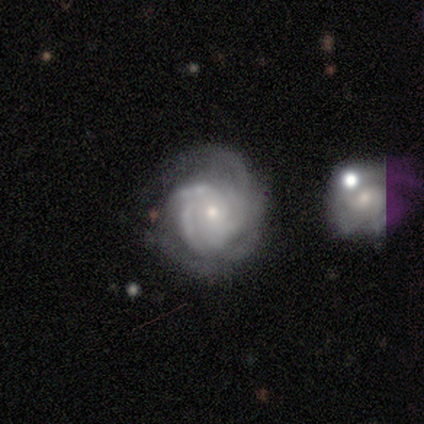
This appears to be a featured or disk galaxy (100%) with no bar (60%), 2 (20%, tied with 3, 4, more than 4 and can't tell) tight (80%) spiral arms (100%) and a small central bulge (80%). Merging: minor disturbance (60%).